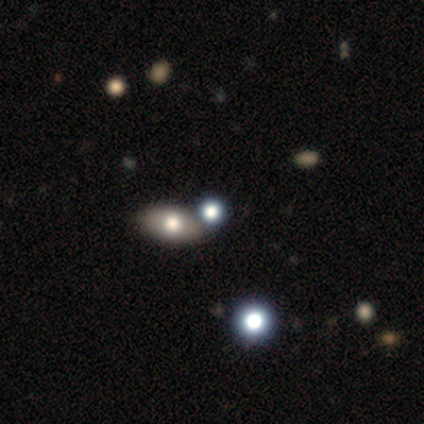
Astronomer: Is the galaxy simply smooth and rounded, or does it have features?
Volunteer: smooth — 50%.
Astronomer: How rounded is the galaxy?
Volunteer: round — 50%, tied with in between at 50%.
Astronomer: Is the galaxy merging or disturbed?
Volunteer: none — 100%.